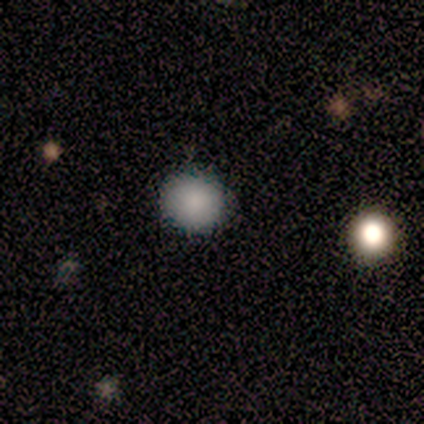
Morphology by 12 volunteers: smooth-or-featured: smooth: 92% | star or artifact: 8% | featured or disk: 0%
  how-rounded: round: 100% | in between: 0% | cigar-shaped: 0%
  merging: none: 100% | minor disturbance: 0% | major disturbance: 0% | merger: 0%